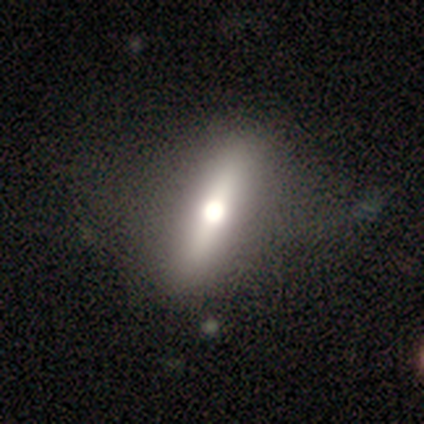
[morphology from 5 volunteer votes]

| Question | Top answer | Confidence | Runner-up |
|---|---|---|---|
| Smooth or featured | featured or disk | 60% | smooth (40%) |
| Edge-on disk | yes | 67% | no (33%) |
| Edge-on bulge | rounded | 100% | — |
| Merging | none | 40% | tied: major disturbance (40%) |